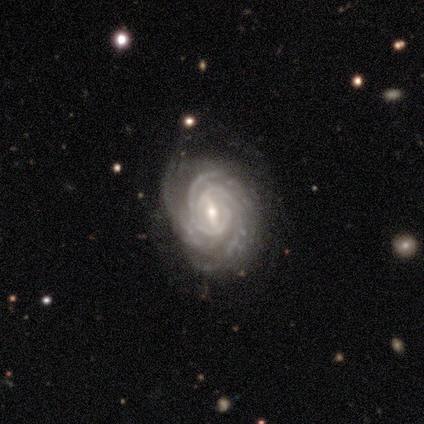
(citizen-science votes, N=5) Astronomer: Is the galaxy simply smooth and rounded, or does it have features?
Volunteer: featured or disk — 100%.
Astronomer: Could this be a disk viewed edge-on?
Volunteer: no — 100%.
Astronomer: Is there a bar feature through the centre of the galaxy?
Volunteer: strong — 60% (runner-up: weak, 40%).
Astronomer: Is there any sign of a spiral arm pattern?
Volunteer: yes — 100%.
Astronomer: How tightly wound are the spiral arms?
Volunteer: tight — 100%.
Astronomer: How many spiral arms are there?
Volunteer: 2 — 60%.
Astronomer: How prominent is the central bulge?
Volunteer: moderate — 60% (runner-up: small, 40%).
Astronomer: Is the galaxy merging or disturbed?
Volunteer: minor disturbance — 80%.